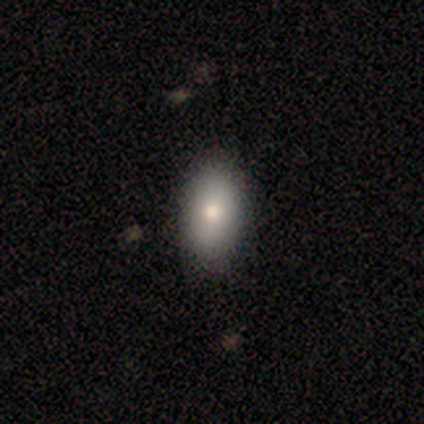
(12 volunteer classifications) Volunteers were most divided on "smooth or featured": smooth: 58%, featured or disk: 25%, star or artifact: 17%. More confident: how rounded — in between (100%); merging — none (70%).